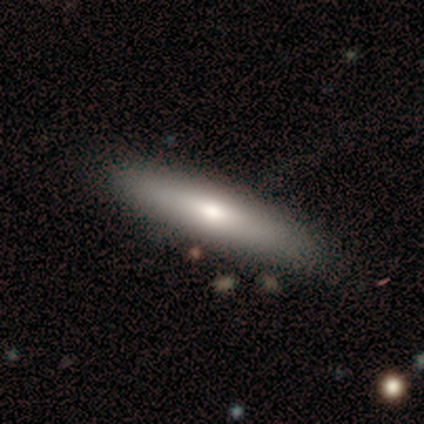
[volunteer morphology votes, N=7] Smooth or featured?
  - smooth: 57% *
  - featured or disk: 43%
  - star or artifact: 0%
How rounded?
  - cigar-shaped: 100% *
  - round: 0%
  - in between: 0%
Merging?
  - none: 86% *
  - minor disturbance: 14%
  - major disturbance: 0%
  - merger: 0%